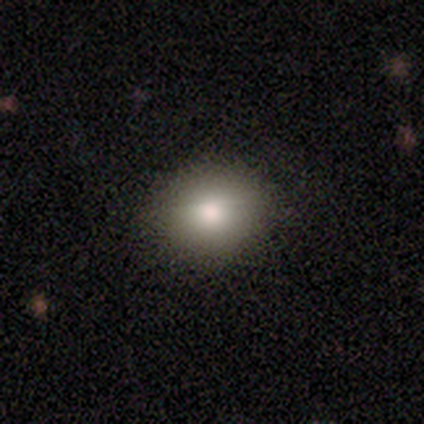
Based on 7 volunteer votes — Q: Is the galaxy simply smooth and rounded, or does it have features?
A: smooth — 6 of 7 (86%).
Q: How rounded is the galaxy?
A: round — 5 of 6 (83%).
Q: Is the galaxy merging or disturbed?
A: none — 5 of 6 (83%).